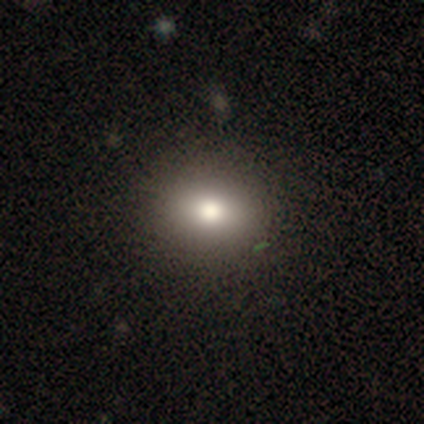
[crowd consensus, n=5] Q: Smooth or featured?
A: smooth (40%); tied with: star or artifact (40%)
Q: How rounded?
A: round (50%); tied with: in between (50%)
Q: Merging?
A: none (67%); runner-up: minor disturbance (33%)